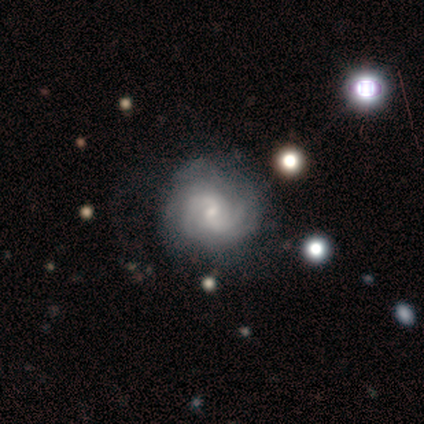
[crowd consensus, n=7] Smooth or featured?
  - featured or disk: 100% *
  - smooth: 0%
  - star or artifact: 0%
Edge-on disk?
  - no: 100% *
  - yes: 0%
Bar?
  - no: 71% *
  - weak: 29%
  - strong: 0%
Spiral arms?
  - yes: 100% *
  - no: 0%
Spiral winding?
  - medium: 71% *
  - tight: 29%
  - loose: 0%
Spiral arm count?
  - 2: 43% * (tied)
  - can't tell: 43% * (tied)
  - 4: 14%
  - 1: 0%
  - 3: 0%
  - more than 4: 0%
Bulge size?
  - small: 71% *
  - moderate: 29%
  - dominant: 0%
  - large: 0%
  - none: 0%
Merging?
  - none: 71% *
  - minor disturbance: 29%
  - major disturbance: 0%
  - merger: 0%